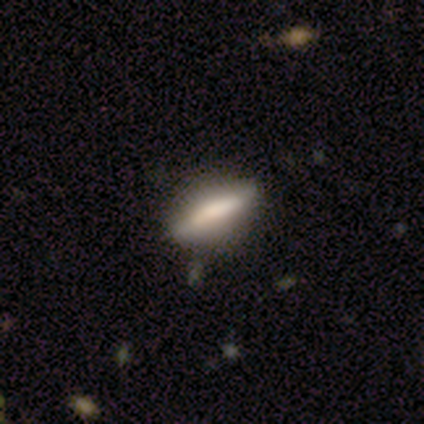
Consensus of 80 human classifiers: Q: Smooth or featured?
A: smooth (66%); runner-up: featured or disk (30%)
Q: How rounded?
A: cigar-shaped (55%); runner-up: in between (43%)
Q: Merging?
A: none (47%); runner-up: minor disturbance (5%)